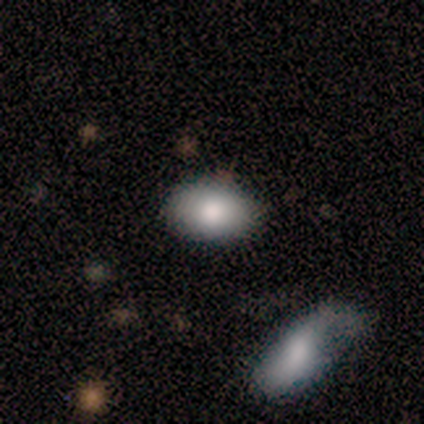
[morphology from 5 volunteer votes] Smooth or featured?
  - smooth: 80% *
  - featured or disk: 20%
  - star or artifact: 0%
How rounded?
  - in between: 100% *
  - round: 0%
  - cigar-shaped: 0%
Merging?
  - none: 80% *
  - minor disturbance: 20%
  - major disturbance: 0%
  - merger: 0%